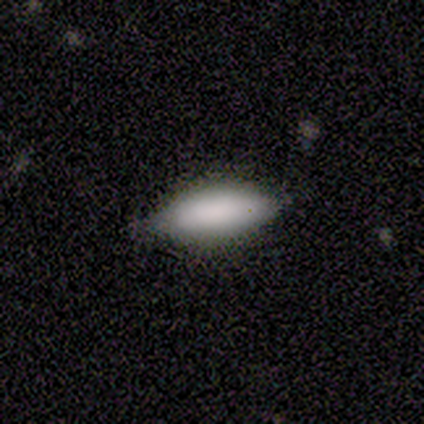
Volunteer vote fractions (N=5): Overall: smooth (100%). How rounded: in between (80%). Merging: none (100%).